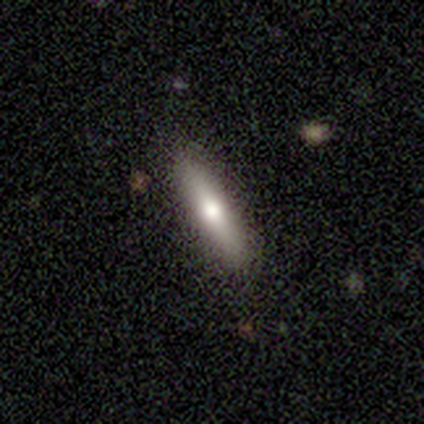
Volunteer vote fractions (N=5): Volunteers were most divided on "how rounded" (2-way tie): in between: 50%, cigar-shaped: 50%, round: 0%. More confident: smooth or featured — smooth (80%); merging — none (80%).